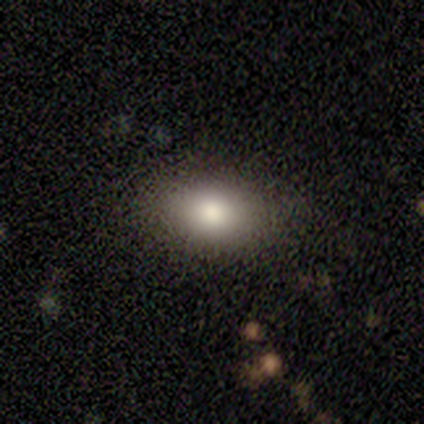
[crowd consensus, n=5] This appears to be a smooth galaxy with no disk features (80%) that is in between round and cigar-shaped (75%). Merging: none (100%).